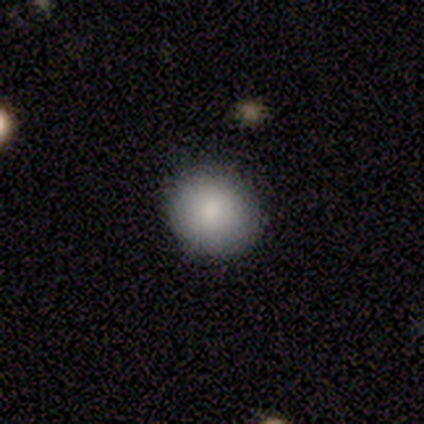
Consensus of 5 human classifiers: smooth_or_featured: smooth (p=1.00)
how_rounded: round (p=0.80) [alt: in between p=0.20]
merging: none (p=0.80) [alt: minor disturbance p=0.20]